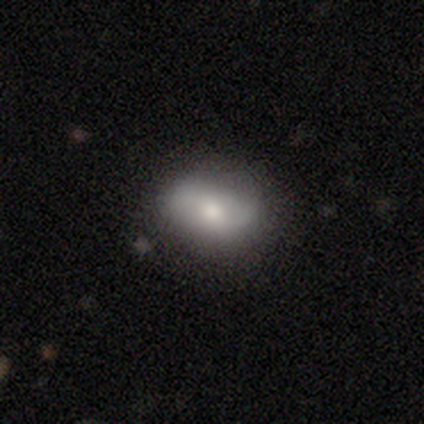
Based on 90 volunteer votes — Volunteers were most divided on "smooth or featured": smooth: 61%, featured or disk: 31%, star or artifact: 8%. More confident: how rounded — in between (85%); merging — none (70%).